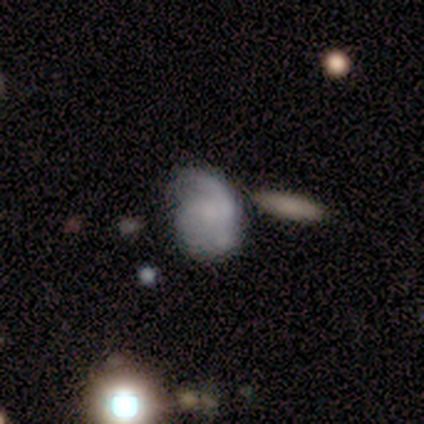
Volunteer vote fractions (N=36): Smooth or featured? featured or disk (53%)
Edge-on disk? no (100%)
Bar? no (68%)
Spiral arms? yes (74%)
Spiral winding? medium (71%)
Spiral arm count? 1 (50%)
Bulge size? none (47%)
Merging? minor disturbance (39%)